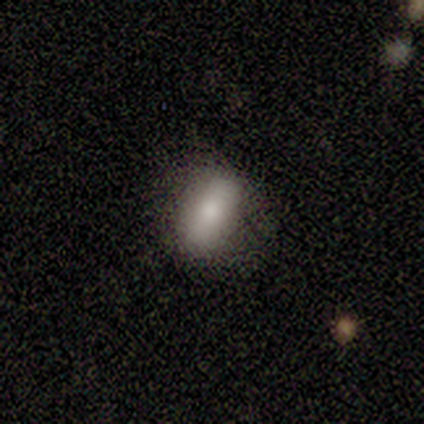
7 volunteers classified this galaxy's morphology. Smooth or featured?
  - smooth: 100% *
  - featured or disk: 0%
  - star or artifact: 0%
How rounded?
  - in between: 86% *
  - round: 14%
  - cigar-shaped: 0%
Merging?
  - none: 71% *
  - minor disturbance: 29%
  - major disturbance: 0%
  - merger: 0%